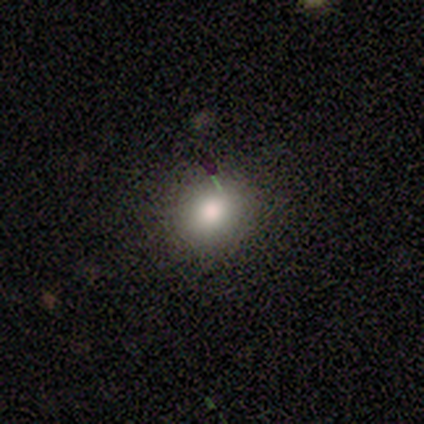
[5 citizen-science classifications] smooth 100%, featured or disk 0%, star or artifact 0%. Down the decision tree: how rounded — round (100%); merging — none (100%).